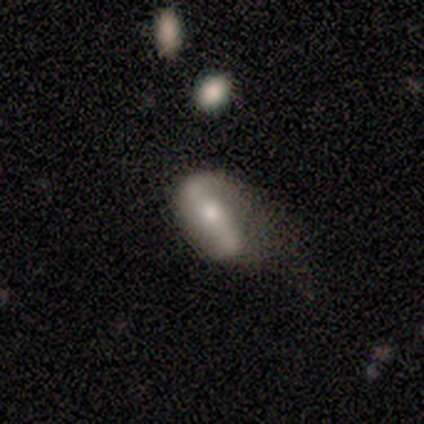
Volunteers were most divided on "bar": weak: 67%, strong: 33%, no: 0%. More confident: edge-on disk — no (100%); spiral winding — loose (100%); spiral arm count — 2 (100%); merging — major disturbance (75%); spiral arms — yes (67%); bulge size — small (67%); smooth or featured — featured or disk (60%).